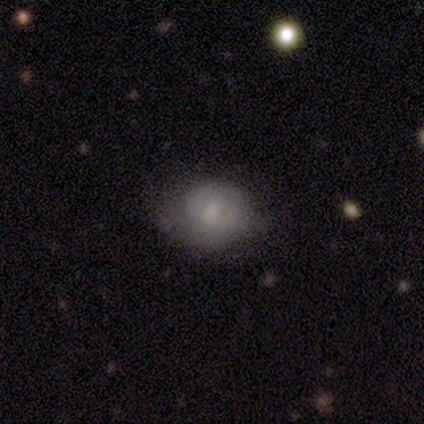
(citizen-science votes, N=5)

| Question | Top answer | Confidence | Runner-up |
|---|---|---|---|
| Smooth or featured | featured or disk | 60% | smooth (40%) |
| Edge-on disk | no | 100% | — |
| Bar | weak | 67% | no (33%) |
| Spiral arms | yes | 67% | no (33%) |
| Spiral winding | medium | 100% | — |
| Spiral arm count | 2 | 50% | tied: can't tell (50%) |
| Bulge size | small | 67% | moderate (33%) |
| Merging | none | 60% | minor disturbance (20%) |